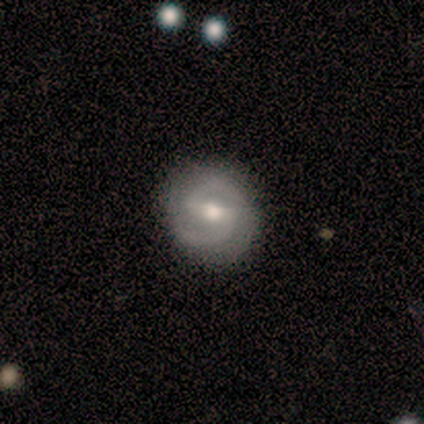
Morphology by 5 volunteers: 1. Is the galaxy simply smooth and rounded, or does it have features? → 100% featured or disk, 0% smooth, 0% star or artifact.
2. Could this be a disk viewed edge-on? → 100% no, 0% yes.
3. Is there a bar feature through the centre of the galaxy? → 100% weak, 0% strong, 0% no.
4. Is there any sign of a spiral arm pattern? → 100% yes, 0% no.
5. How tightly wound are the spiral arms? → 80% medium, 20% loose, 0% tight.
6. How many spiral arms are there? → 100% 2, 0% 1, 0% 3, 0% 4, 0% more than 4, 0% can't tell.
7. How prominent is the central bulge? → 80% moderate, 20% small, 0% dominant, 0% large, 0% none.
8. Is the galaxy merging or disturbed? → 100% none, 0% minor disturbance, 0% major disturbance, 0% merger.